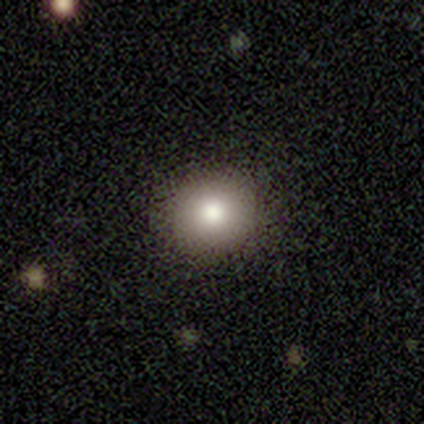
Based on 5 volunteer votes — Morphology: type=smooth (80%); roundness=round (100%); merging=none (100%).